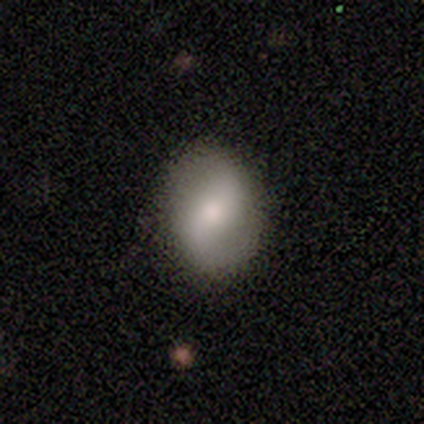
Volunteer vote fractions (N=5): Smooth or featured?
  - featured or disk: 80% *
  - smooth: 20%
  - star or artifact: 0%
Edge-on disk?
  - no: 100% *
  - yes: 0%
Bar?
  - no: 50% *
  - strong: 25%
  - weak: 25%
Spiral arms?
  - yes: 100% *
  - no: 0%
Spiral winding?
  - loose: 50% *
  - tight: 25%
  - medium: 25%
Spiral arm count?
  - 2: 100% *
  - 1: 0%
  - 3: 0%
  - 4: 0%
  - more than 4: 0%
  - can't tell: 0%
Bulge size?
  - moderate: 100% *
  - dominant: 0%
  - large: 0%
  - small: 0%
  - none: 0%
Merging?
  - none: 80% *
  - major disturbance: 20%
  - minor disturbance: 0%
  - merger: 0%